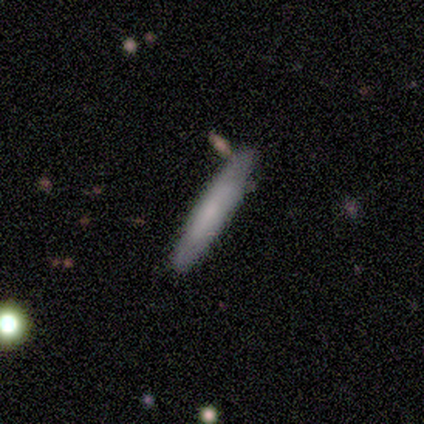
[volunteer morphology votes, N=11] smooth 91%, featured or disk 9%, star or artifact 0%. Down the decision tree: how rounded — cigar-shaped (90%); merging — none (82%).